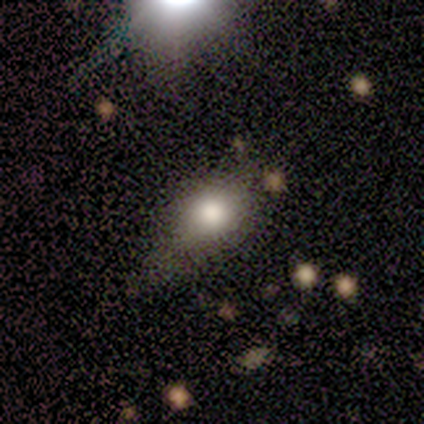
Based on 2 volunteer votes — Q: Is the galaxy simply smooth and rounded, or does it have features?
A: smooth — 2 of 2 (100%).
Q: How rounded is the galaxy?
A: round — 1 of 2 (50%, tied with in between).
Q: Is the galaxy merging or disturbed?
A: none — 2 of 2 (100%).